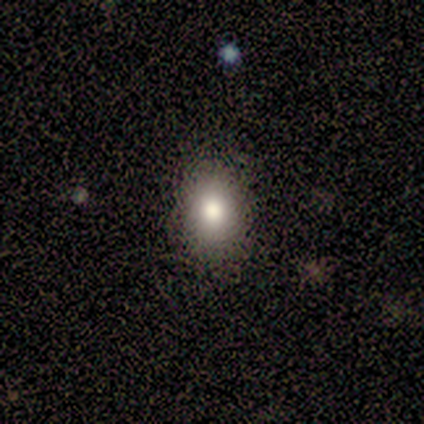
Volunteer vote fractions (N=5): Smooth or featured: smooth — 80% (star or artifact — 20%)
How rounded: in between — 75% (round — 25%)
Merging: none — 75% (minor disturbance — 25%)